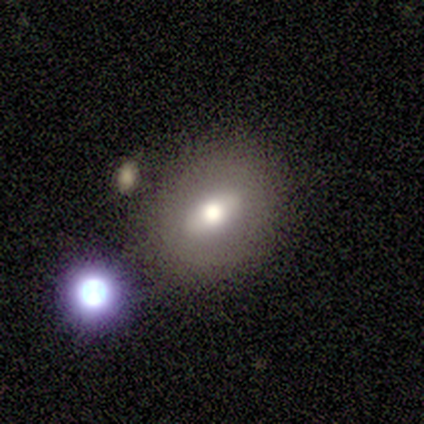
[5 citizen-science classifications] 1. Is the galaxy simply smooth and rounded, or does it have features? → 60% smooth, 40% featured or disk, 0% star or artifact.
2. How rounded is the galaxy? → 100% in between, 0% round, 0% cigar-shaped.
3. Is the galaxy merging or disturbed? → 60% none, 20% minor disturbance, 20% merger, 0% major disturbance.